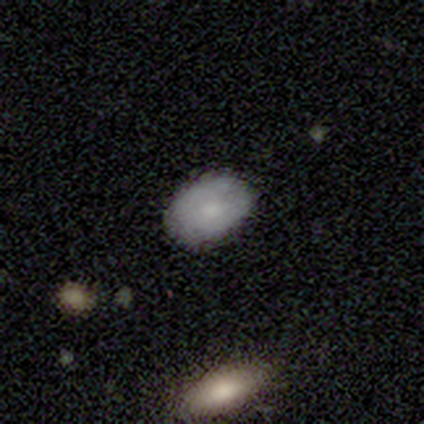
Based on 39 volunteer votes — Smooth or featured? 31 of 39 (79%) said smooth. How rounded? 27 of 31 (87%) said in between. Merging? 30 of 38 (79%) said none.